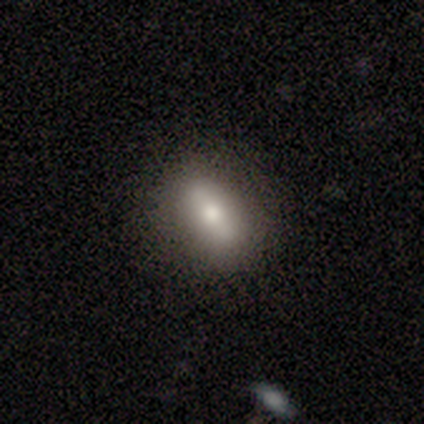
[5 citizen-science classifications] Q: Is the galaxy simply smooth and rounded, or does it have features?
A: featured or disk — 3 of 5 (60%).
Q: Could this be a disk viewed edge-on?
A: yes — 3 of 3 (100%).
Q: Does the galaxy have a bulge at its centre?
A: rounded — 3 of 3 (100%).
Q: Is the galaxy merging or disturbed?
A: none — 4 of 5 (80%).